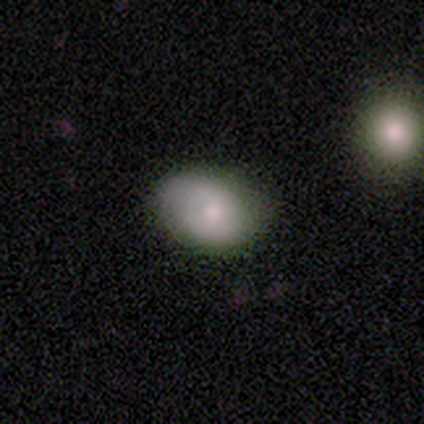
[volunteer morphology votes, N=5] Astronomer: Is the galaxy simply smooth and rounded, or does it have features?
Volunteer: smooth — 80%.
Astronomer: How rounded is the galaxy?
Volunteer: in between — 100%.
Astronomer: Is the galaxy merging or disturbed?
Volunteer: none — 80%.